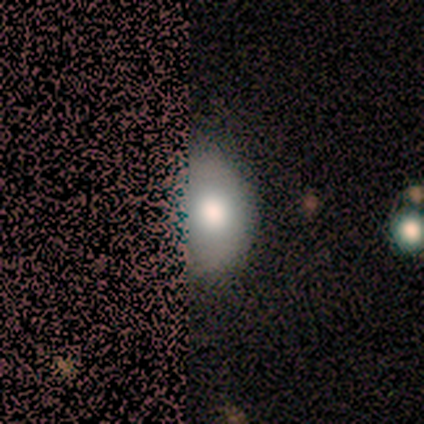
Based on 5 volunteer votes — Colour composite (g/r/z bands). It shows a smooth galaxy with no disk features (60%) that is round (67%). Merging: minor disturbance (40%).